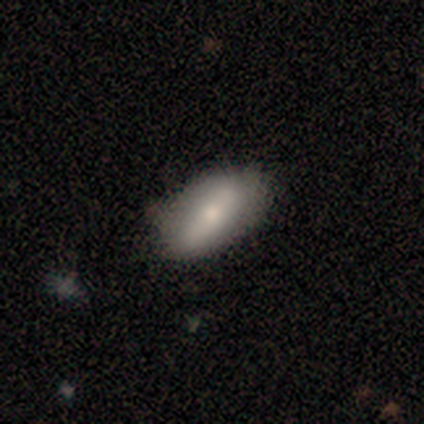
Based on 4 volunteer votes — This appears to be a smooth galaxy with no disk features (75%) that is in between round and cigar-shaped (100%). Merging: none (50%, tied with minor disturbance).